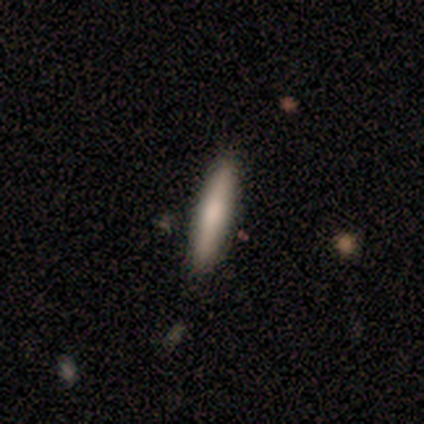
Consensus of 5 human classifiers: This is clearly a smooth galaxy (80%). How rounded: clearly cigar-shaped (100%). Merging: clearly none (100%).